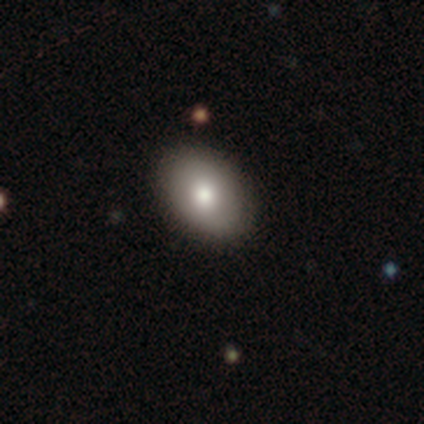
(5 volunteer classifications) A smooth galaxy with no disk features (100%) that is in between round and cigar-shaped (100%). Merging: none (100%).